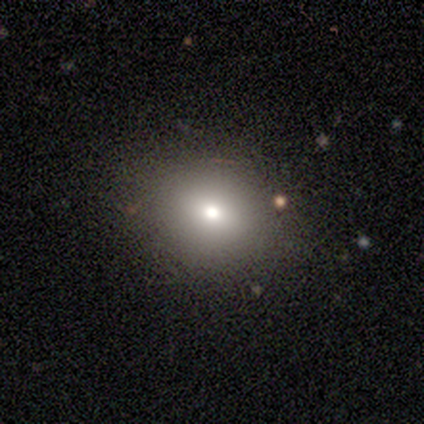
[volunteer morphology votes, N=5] Q: Smooth or featured?
A: smooth (60%); runner-up: featured or disk (40%)
Q: How rounded?
A: round (100%)
Q: Merging?
A: none (100%)